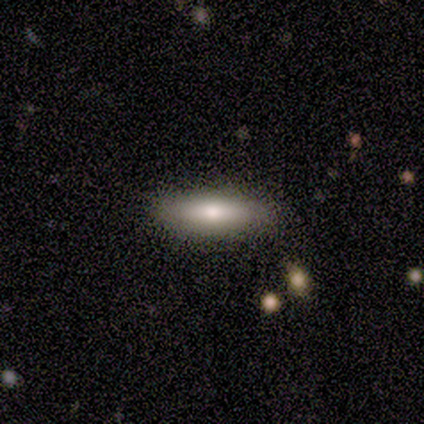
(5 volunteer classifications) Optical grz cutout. It shows a smooth galaxy with no disk features (80%) that is in between round and cigar-shaped (75%). Merging: none (100%).